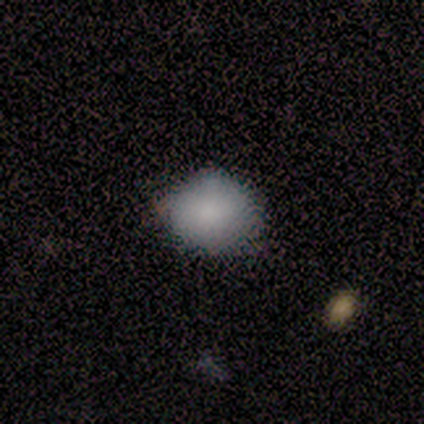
Q: Smooth or featured?
A: smooth (100%)
Q: How rounded?
A: round (80%); runner-up: in between (20%)
Q: Merging?
A: none (80%); runner-up: minor disturbance (20%)